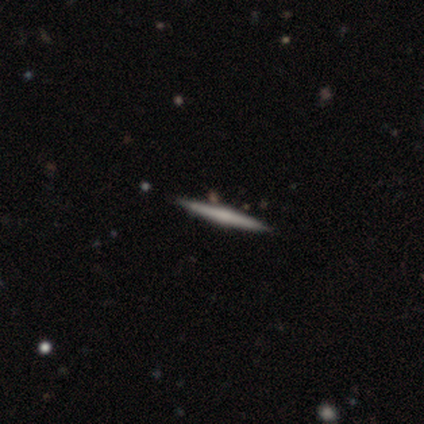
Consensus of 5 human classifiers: A smooth galaxy with no disk features (60%) that is cigar-shaped (67%).

Vote fractions:
- Smooth or featured? smooth: 60% / featured or disk: 40% / star or artifact: 0%
- How rounded? cigar-shaped: 67% / round: 33% / in between: 0%
- Merging? none: 80% / minor disturbance: 20% / major disturbance: 0% / merger: 0%